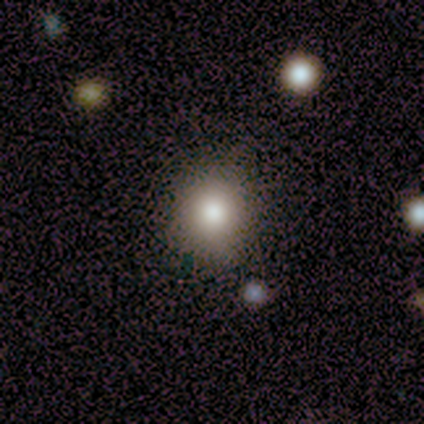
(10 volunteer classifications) Overall: smooth (60%; star or artifact 30%). How rounded: round (83%). Merging: none (100%).